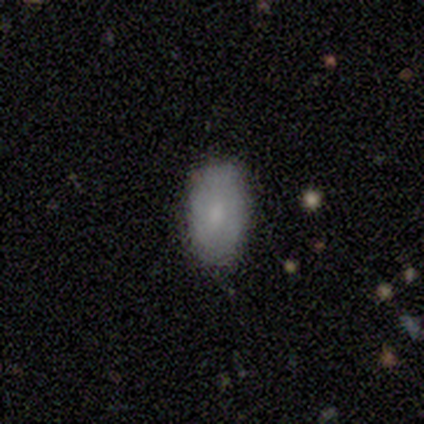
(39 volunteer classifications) smooth-or-featured: smooth: 79% | featured or disk: 21% | star or artifact: 0%
  how-rounded: in between: 94% | round: 6% | cigar-shaped: 0%
  merging: none: 85% | minor disturbance: 13% | major disturbance: 3% | merger: 0%